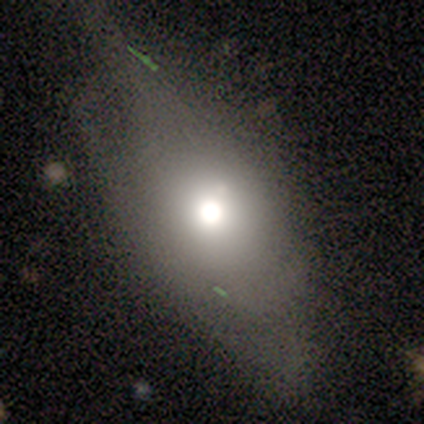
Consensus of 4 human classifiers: Morphology: type=smooth (100%); roundness=in between (100%); merging=none (75%).